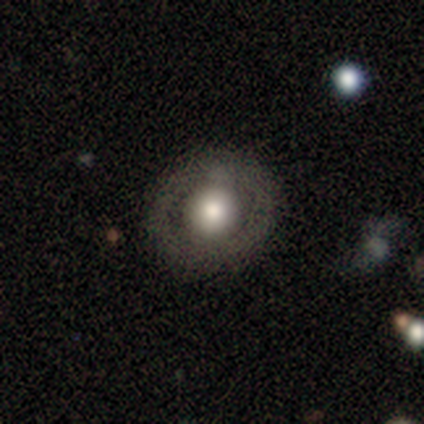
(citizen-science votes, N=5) smooth-or-featured: smooth: 40% (tied) | star or artifact: 40% (tied) | featured or disk: 20%
  how-rounded: round: 100% | in between: 0% | cigar-shaped: 0%
  merging: none: 100% | minor disturbance: 0% | major disturbance: 0% | merger: 0%